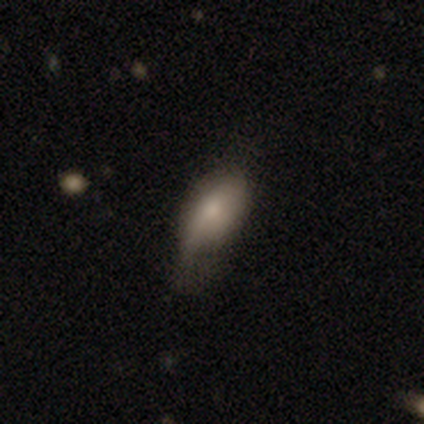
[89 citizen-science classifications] Volunteers were most divided on "merging": minor disturbance: 55%, none: 26%, major disturbance: 18%, merger: 1%. More confident: how rounded — in between (91%); smooth or featured — smooth (76%).